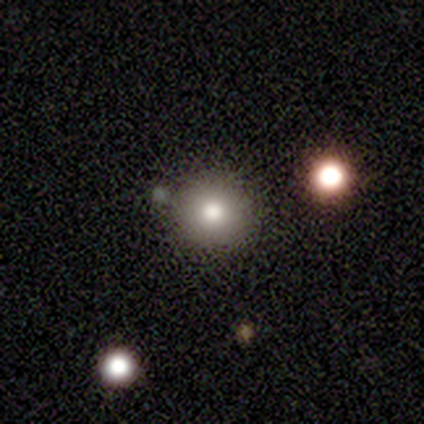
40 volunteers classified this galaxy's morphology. smooth-or-featured: smooth: 62% | star or artifact: 28% | featured or disk: 10%
  how-rounded: round: 92% | in between: 8% | cigar-shaped: 0%
  merging: none: 72% | merger: 17% | major disturbance: 7% | minor disturbance: 3%